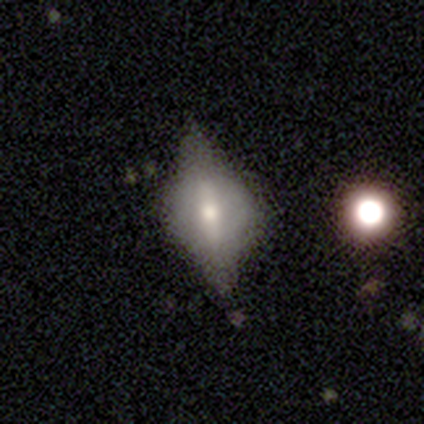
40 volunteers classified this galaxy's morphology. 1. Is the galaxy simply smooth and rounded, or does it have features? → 62% featured or disk, 32% smooth, 5% star or artifact.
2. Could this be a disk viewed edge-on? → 68% yes, 32% no.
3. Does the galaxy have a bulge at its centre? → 82% rounded, 18% boxy, 0% none.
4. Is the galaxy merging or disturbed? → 74% none, 13% minor disturbance, 13% major disturbance, 0% merger.